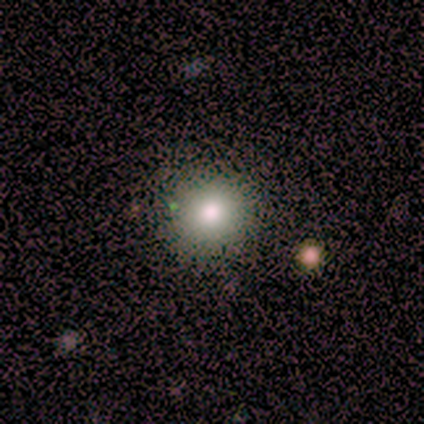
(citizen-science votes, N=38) A smooth galaxy with no disk features (95%) that is round (94%).

Vote fractions:
- Smooth or featured? smooth: 95% / star or artifact: 5% / featured or disk: 0%
- How rounded? round: 94% / in between: 6% / cigar-shaped: 0%
- Merging? none: 92% / minor disturbance: 6% / merger: 3% / major disturbance: 0%